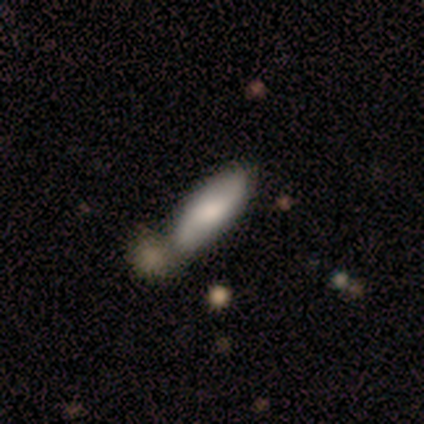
smooth 75%, featured or disk 25%, star or artifact 0%. Down the decision tree: how rounded — in between (67%); merging — minor disturbance (50%, tied with merger).